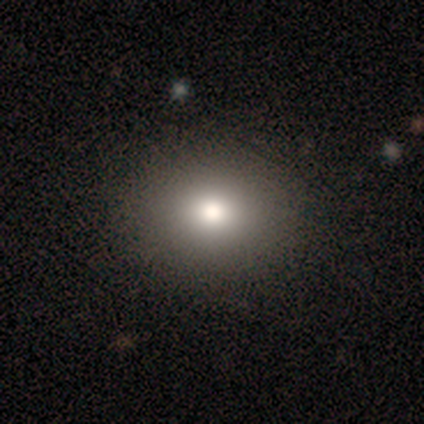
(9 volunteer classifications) A smooth galaxy with no disk features (89%) that is round (50%, tied with in between). Merging: none (100%).